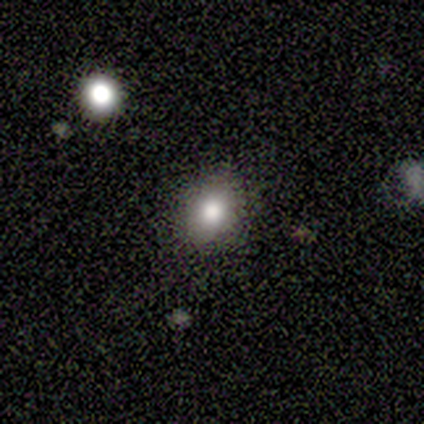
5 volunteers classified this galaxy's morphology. This appears to be a smooth galaxy with no disk features (60%) that is in between round and cigar-shaped (67%). Merging: none (80%).